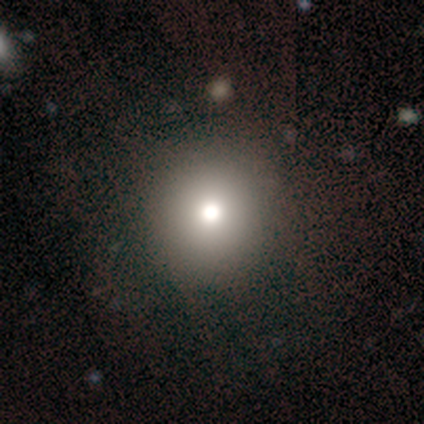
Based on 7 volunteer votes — Volunteers were most divided on "smooth or featured": smooth: 57%, star or artifact: 29%, featured or disk: 14%. More confident: how rounded — round (100%); merging — none (80%).